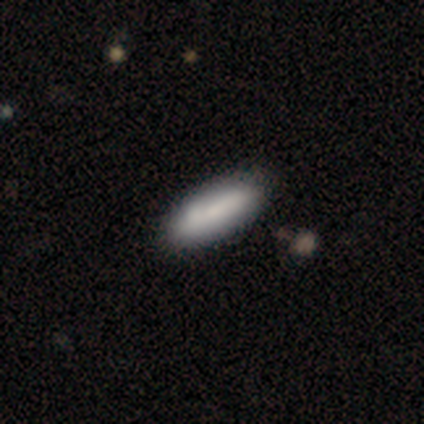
smooth-or-featured: smooth: 71% | featured or disk: 21% | star or artifact: 8%
  how-rounded: in between: 74% | cigar-shaped: 26% | round: 0%
  merging: none: 49% | minor disturbance: 11% | merger: 9% | major disturbance: 3%